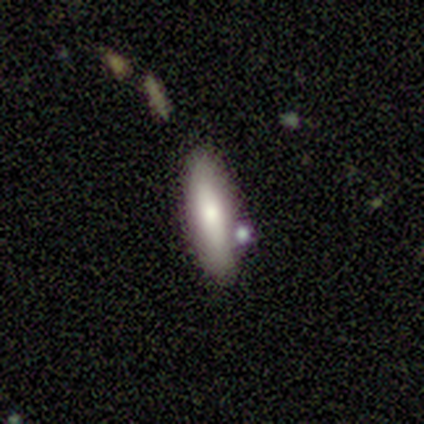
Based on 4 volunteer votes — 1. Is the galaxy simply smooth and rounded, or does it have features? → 75% featured or disk, 25% smooth, 0% star or artifact.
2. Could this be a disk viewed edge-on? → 100% yes, 0% no.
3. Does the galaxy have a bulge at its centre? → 100% rounded, 0% boxy, 0% none.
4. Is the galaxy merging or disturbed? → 75% none, 25% minor disturbance, 0% major disturbance, 0% merger.